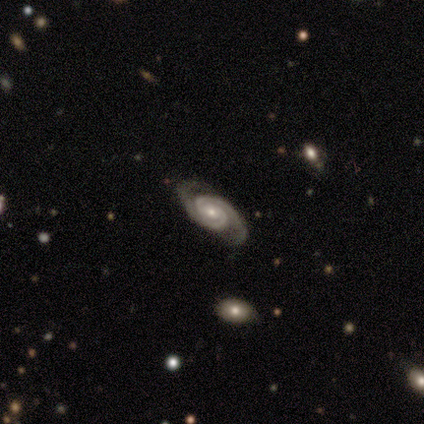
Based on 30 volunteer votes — Smooth or featured?
  - featured or disk: 93% *
  - star or artifact: 7%
  - smooth: 0%
Edge-on disk?
  - no: 96% *
  - yes: 4%
Bar?
  - no: 67% *
  - weak: 22%
  - strong: 11%
Spiral arms?
  - yes: 100% *
  - no: 0%
Spiral winding?
  - medium: 56% *
  - tight: 37%
  - loose: 7%
Spiral arm count?
  - 2: 96% *
  - 3: 4%
  - 1: 0%
  - 4: 0%
  - more than 4: 0%
  - can't tell: 0%
Bulge size?
  - moderate: 48% *
  - small: 44%
  - large: 7%
  - dominant: 0%
  - none: 0%
Merging?
  - none: 89% *
  - minor disturbance: 4%
  - major disturbance: 4%
  - merger: 4%